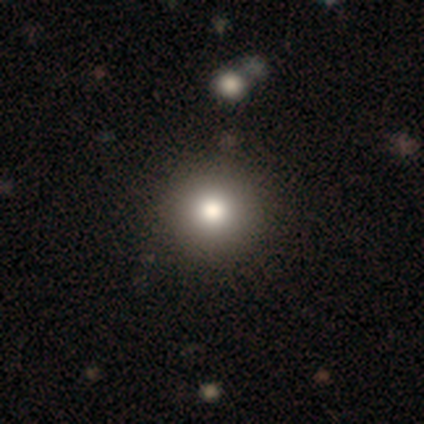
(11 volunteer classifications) A smooth galaxy with no disk features (82%) that is round (100%).

Vote fractions:
- Smooth or featured? smooth: 82% / featured or disk: 9% / star or artifact: 9%
- How rounded? round: 100% / in between: 0% / cigar-shaped: 0%
- Merging? none: 90% / minor disturbance: 10% / major disturbance: 0% / merger: 0%